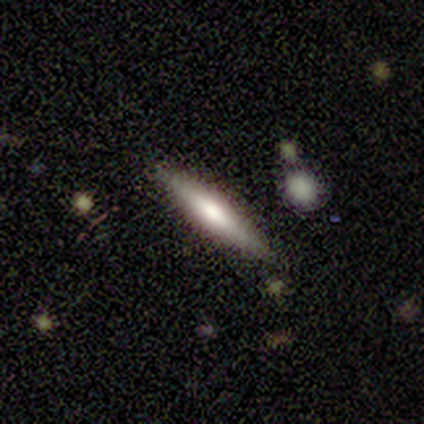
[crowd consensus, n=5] This is likely a featured or disk galaxy (60%). It is clearly viewed edge-on (100%). Edge-on bulge: clearly rounded (100%). Merging: clearly none (80%).